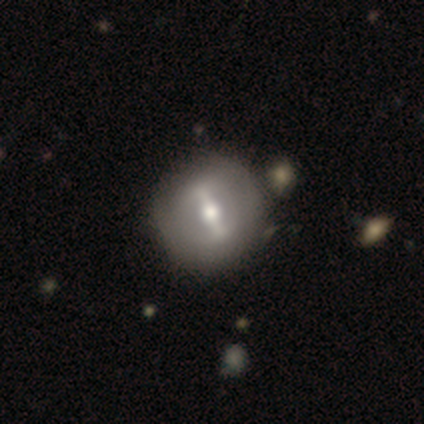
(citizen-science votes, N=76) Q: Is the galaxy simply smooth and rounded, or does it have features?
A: featured or disk — 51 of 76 (67%).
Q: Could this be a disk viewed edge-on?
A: no — 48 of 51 (94%).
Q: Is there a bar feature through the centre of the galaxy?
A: strong — 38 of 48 (79%).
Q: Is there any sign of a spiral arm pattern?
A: no — 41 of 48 (85%).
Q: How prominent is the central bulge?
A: moderate — 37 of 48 (77%).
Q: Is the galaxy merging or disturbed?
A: none — 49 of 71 (69%).